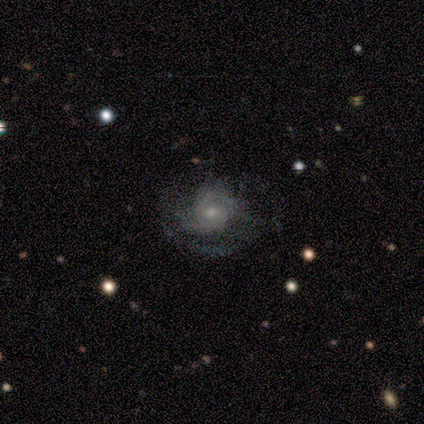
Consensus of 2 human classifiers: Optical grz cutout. It shows a featured or disk galaxy (100%) with a weak bar (100%), 3 (50%, tied with can't tell) medium (100%) spiral arms (100%) and a moderate central bulge (50%, tied with small). Merging: none (100%).